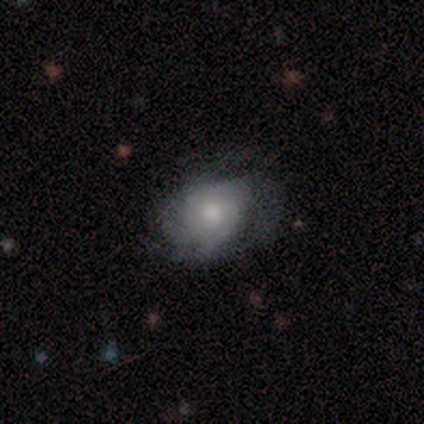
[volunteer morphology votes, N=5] Smooth or featured?
  - featured or disk: 60% *
  - smooth: 40%
  - star or artifact: 0%
Edge-on disk?
  - no: 100% *
  - yes: 0%
Bar?
  - no: 100% *
  - strong: 0%
  - weak: 0%
Spiral arms?
  - yes: 67% *
  - no: 33%
Spiral winding?
  - tight: 100% *
  - medium: 0%
  - loose: 0%
Spiral arm count?
  - 1: 50% * (tied)
  - can't tell: 50% * (tied)
  - 2: 0%
  - 3: 0%
  - 4: 0%
  - more than 4: 0%
Bulge size?
  - moderate: 67% *
  - large: 33%
  - dominant: 0%
  - small: 0%
  - none: 0%
Merging?
  - none: 80% *
  - major disturbance: 20%
  - minor disturbance: 0%
  - merger: 0%